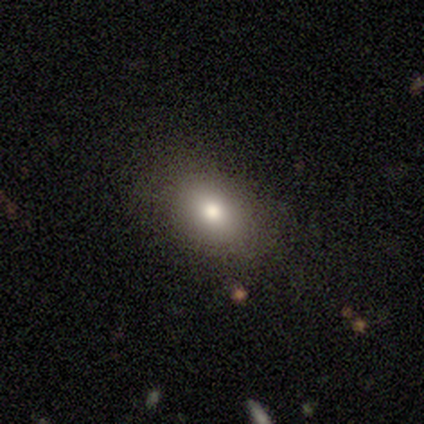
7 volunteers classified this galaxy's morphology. Smooth or featured? smooth (86%)
How rounded? in between (83%)
Merging? none (71%)